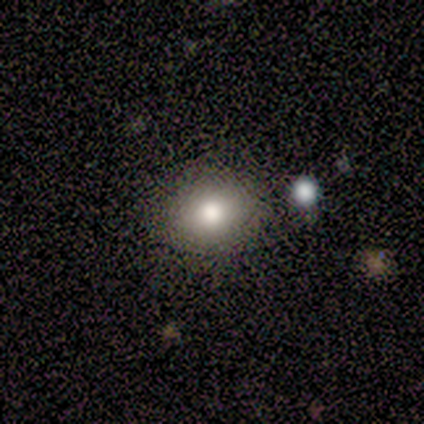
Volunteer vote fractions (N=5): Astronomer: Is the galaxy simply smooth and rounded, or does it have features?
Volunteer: smooth — 100%.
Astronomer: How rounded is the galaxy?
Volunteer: round — 80%.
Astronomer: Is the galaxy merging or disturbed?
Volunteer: none — 80%.